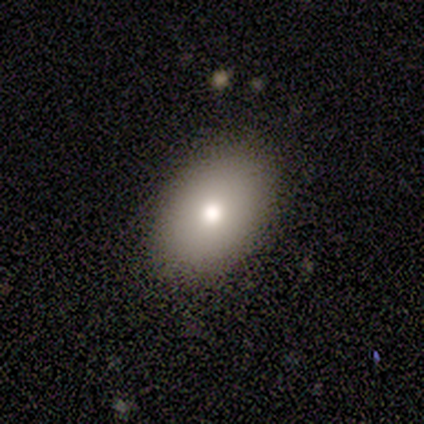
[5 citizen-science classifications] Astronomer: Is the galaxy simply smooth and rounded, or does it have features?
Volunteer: smooth — 100%.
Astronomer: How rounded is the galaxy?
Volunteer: in between — 100%.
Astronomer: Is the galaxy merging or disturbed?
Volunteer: none — 80%.